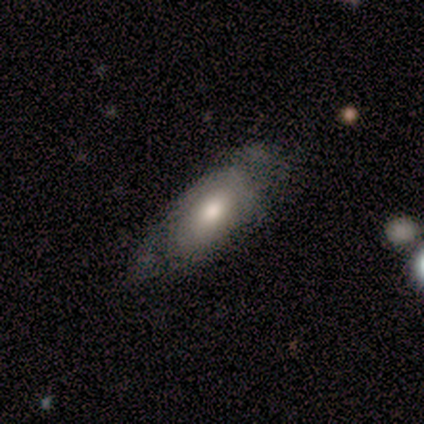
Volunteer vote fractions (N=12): A smooth galaxy with no disk features (67%) that is in between round and cigar-shaped (75%). Merging: none (45%).